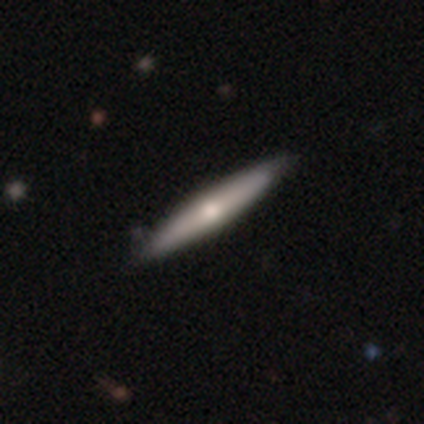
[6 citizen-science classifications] Smooth or featured: smooth — 67% (featured or disk — 33%)
How rounded: cigar-shaped — 100%
Merging: none — 100%